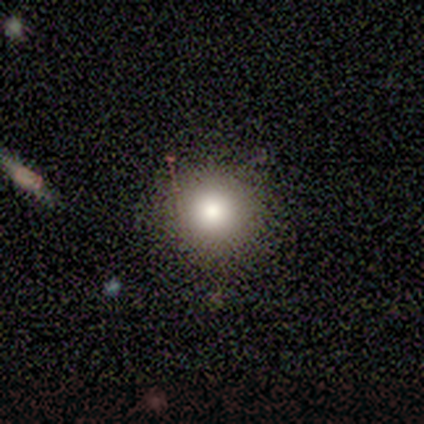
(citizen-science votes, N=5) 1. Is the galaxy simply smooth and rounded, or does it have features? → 40% smooth (tied), 40% featured or disk (tied), 20% star or artifact.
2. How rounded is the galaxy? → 100% round, 0% in between, 0% cigar-shaped.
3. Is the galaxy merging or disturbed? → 100% none, 0% minor disturbance, 0% major disturbance, 0% merger.